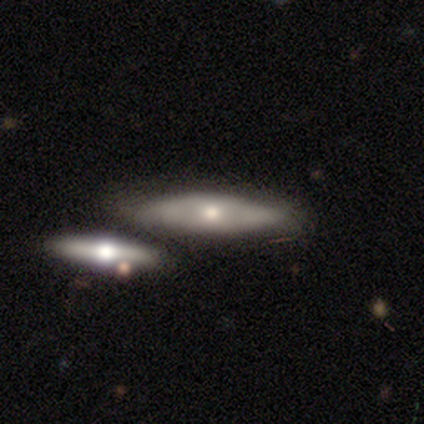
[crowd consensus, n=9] This appears to be a featured or disk galaxy (67%) viewed edge-on (67%) with a rounded central bulge (75%). Merging: none (56%).